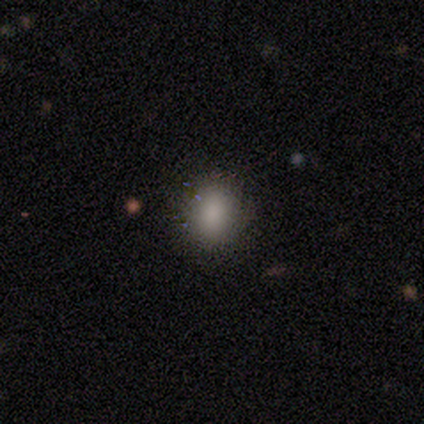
smooth 82%, star or artifact 15%, featured or disk 3%. Down the decision tree: how rounded — in between (56%); merging — none (82%).